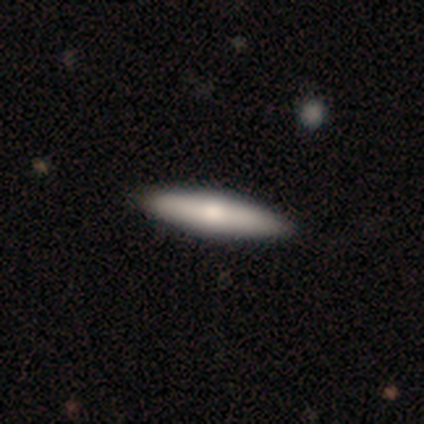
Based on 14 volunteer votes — This appears to be a smooth galaxy with no disk features (57%) that is cigar-shaped (75%). Merging: none (100%).